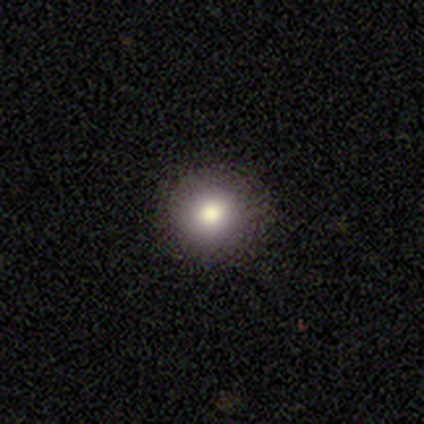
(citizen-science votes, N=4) This is clearly a smooth galaxy (100%). How rounded: clearly round (100%). Merging: clearly none (100%).